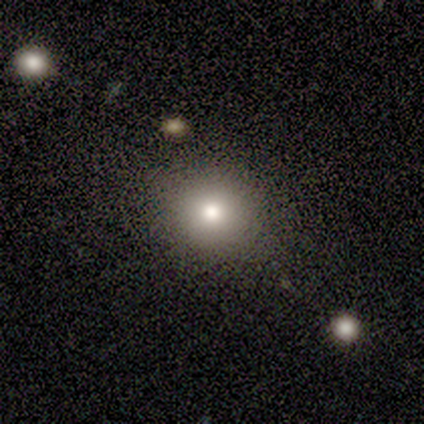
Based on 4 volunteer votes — A smooth galaxy with no disk features (100%) that is round (75%). Merging: none (100%).